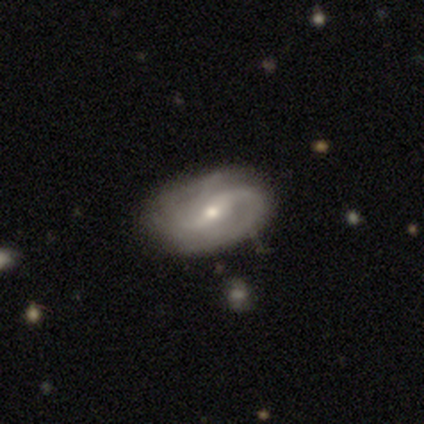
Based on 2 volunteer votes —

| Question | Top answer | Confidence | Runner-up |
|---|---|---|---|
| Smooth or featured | featured or disk | 100% | — |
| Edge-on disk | no | 100% | — |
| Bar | strong | 50% | tied: no (50%) |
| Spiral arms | yes | 50% | tied: no (50%) |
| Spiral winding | loose | 100% | — |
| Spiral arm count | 2 | 100% | — |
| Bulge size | moderate | 50% | tied: small (50%) |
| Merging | none | 100% | — |